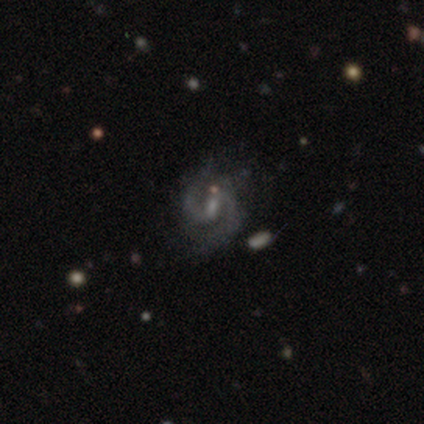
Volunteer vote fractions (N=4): Smooth or featured?
  - featured or disk: 100% *
  - smooth: 0%
  - star or artifact: 0%
Edge-on disk?
  - no: 100% *
  - yes: 0%
Bar?
  - weak: 100% *
  - strong: 0%
  - no: 0%
Spiral arms?
  - yes: 100% *
  - no: 0%
Spiral winding?
  - tight: 50% * (tied)
  - medium: 50% * (tied)
  - loose: 0%
Spiral arm count?
  - 2: 100% *
  - 1: 0%
  - 3: 0%
  - 4: 0%
  - more than 4: 0%
  - can't tell: 0%
Bulge size?
  - moderate: 75% *
  - small: 25%
  - dominant: 0%
  - large: 0%
  - none: 0%
Merging?
  - minor disturbance: 50% *
  - none: 25%
  - merger: 25%
  - major disturbance: 0%